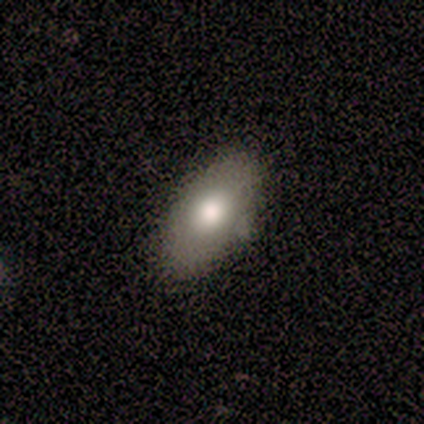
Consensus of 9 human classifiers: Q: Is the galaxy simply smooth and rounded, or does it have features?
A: smooth — 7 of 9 (78%).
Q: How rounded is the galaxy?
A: in between — 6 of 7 (86%).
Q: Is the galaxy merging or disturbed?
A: none — 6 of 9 (67%).